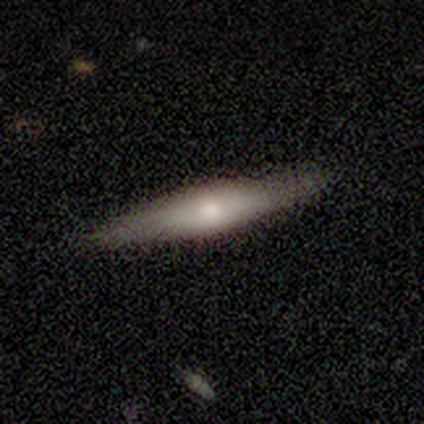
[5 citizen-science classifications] Smooth or featured? featured or disk (60%)
Edge-on disk? yes (100%)
Edge-on bulge? rounded (67%)
Merging? none (80%)